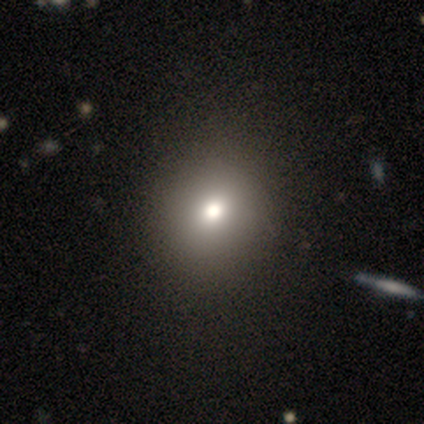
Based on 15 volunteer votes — Q: Smooth or featured?
A: smooth (60%); runner-up: star or artifact (27%)
Q: How rounded?
A: round (78%); runner-up: in between (22%)
Q: Merging?
A: none (91%); runner-up: minor disturbance (9%)